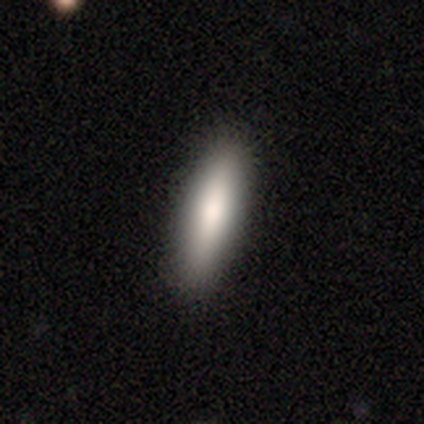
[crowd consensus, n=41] Smooth or featured: smooth — 83% (featured or disk — 15%)
How rounded: cigar-shaped — 53% (in between — 44%)
Merging: none — 95% (minor disturbance — 2%)